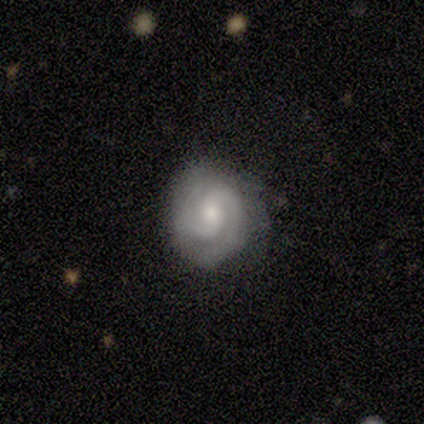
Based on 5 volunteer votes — smooth_or_featured: featured or disk (p=0.80) [alt: smooth p=0.20]
disk_edge_on: no (p=1.00)
bar: no (p=1.00)
has_spiral_arms: yes (p=1.00)
spiral_winding: medium (p=0.75) [alt: tight p=0.25]
spiral_arm_count: 2 (p=1.00)
bulge_size: moderate (p=0.50) [tied with: small p=0.50]
merging: none (p=1.00)